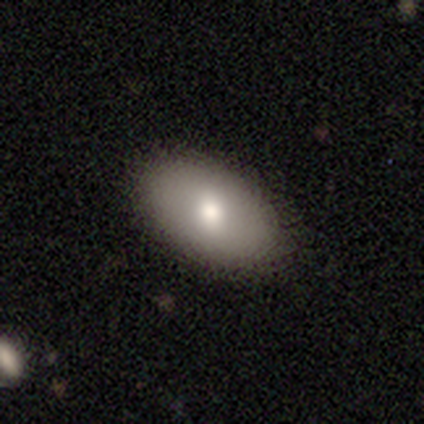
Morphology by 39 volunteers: This is clearly a smooth galaxy (82%). How rounded: clearly in between (94%). Merging: clearly none (89%).